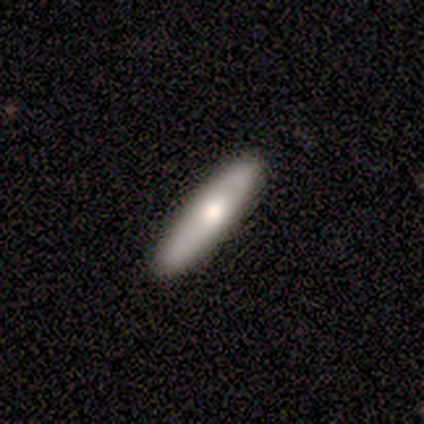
This appears to be a smooth galaxy with no disk features (75%) that is cigar-shaped (67%). Merging: none (75%).